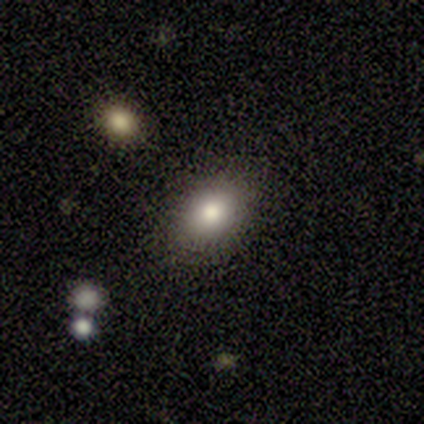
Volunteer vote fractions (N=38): Smooth or featured: smooth — 74% (star or artifact — 18%)
How rounded: in between — 79% (round — 21%)
Merging: none — 90% (minor disturbance — 6%)